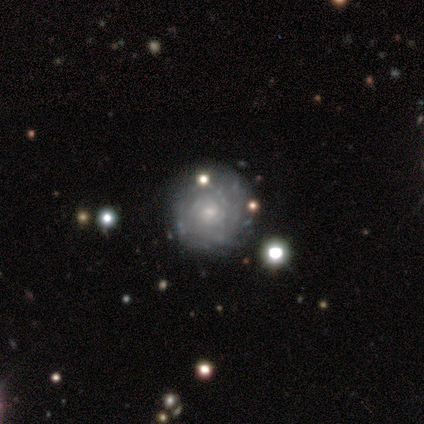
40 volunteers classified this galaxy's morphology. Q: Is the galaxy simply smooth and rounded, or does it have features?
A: featured or disk — 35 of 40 (88%).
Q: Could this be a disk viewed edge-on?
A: no — 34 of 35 (97%).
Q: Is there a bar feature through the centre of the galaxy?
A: no — 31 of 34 (91%).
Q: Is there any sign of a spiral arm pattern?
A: yes — 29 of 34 (85%).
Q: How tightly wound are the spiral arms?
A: tight — 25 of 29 (86%).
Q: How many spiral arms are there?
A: can't tell — 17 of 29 (59%).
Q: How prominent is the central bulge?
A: small — 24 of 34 (71%).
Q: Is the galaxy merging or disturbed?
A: none — 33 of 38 (87%).